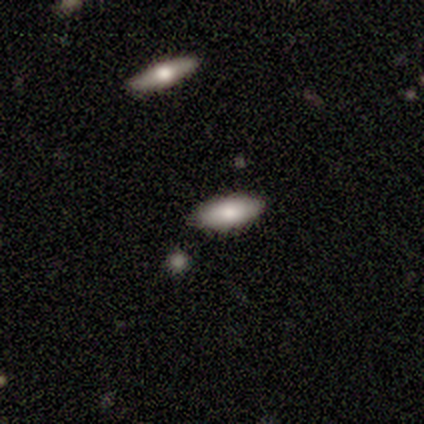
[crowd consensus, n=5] This appears to be a smooth galaxy with no disk features (100%) that is in between round and cigar-shaped (80%). Merging: none (80%).